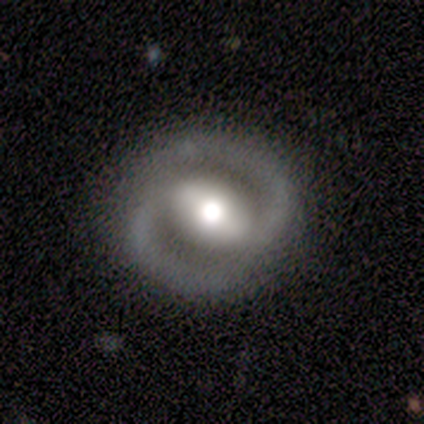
Smooth or featured? 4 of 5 (80%) said featured or disk. Edge-on disk? 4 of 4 (100%) said no. Bar? 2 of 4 (50%) said weak. Spiral arms? 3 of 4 (75%) said yes. Spiral winding? 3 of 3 (100%) said medium. Spiral arm count? 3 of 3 (100%) said 2. Bulge size? 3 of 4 (75%) said moderate. Merging? 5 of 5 (100%) said none.